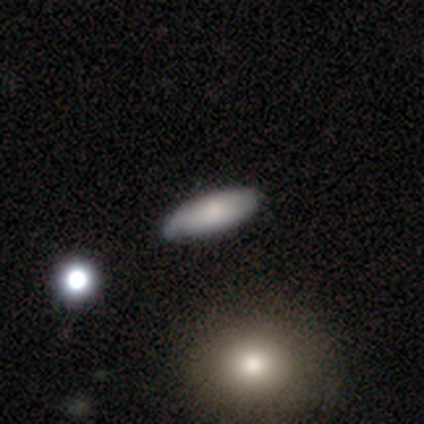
Smooth or featured: smooth — 66% (featured or disk — 29%)
How rounded: in between — 56% (cigar-shaped — 36%)
Merging: none — 81% (minor disturbance — 14%)